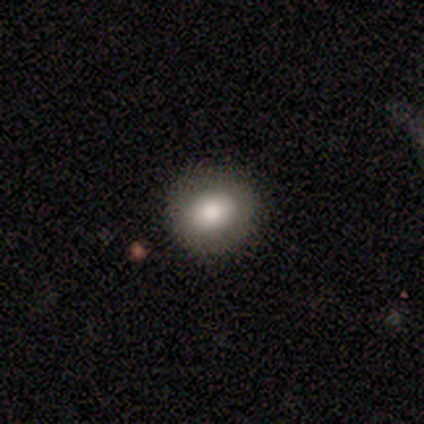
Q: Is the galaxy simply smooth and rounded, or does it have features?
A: smooth — 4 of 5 (80%).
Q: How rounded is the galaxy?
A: round — 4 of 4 (100%).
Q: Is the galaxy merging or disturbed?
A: none — 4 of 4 (100%).